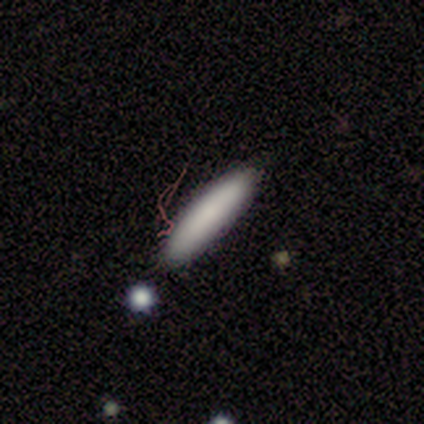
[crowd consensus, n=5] A smooth galaxy with no disk features (100%) that is cigar-shaped (100%). Merging: none (80%).